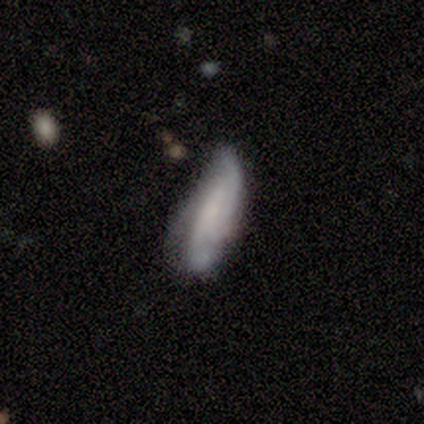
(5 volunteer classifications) A featured or disk galaxy (100%) with no bar (80%), 2 (40%, tied with 3) tight (40%, tied with medium) spiral arms (100%) and a small central bulge (80%).

Vote fractions:
- Smooth or featured? featured or disk: 100% / smooth: 0% / star or artifact: 0%
- Edge-on disk? no: 100% / yes: 0%
- Bar? no: 80% / weak: 20% / strong: 0%
- Spiral arms? yes: 100% / no: 0%
- Spiral winding? tight: 40% (tied) / medium: 40% (tied) / loose: 20%
- Spiral arm count? 2: 40% (tied) / 3: 40% (tied) / can't tell: 20% / 1: 0% / 4: 0% / more than 4: 0%
- Bulge size? small: 80% / none: 20% / dominant: 0% / large: 0% / moderate: 0%
- Merging? none: 60% / minor disturbance: 40% / major disturbance: 0% / merger: 0%